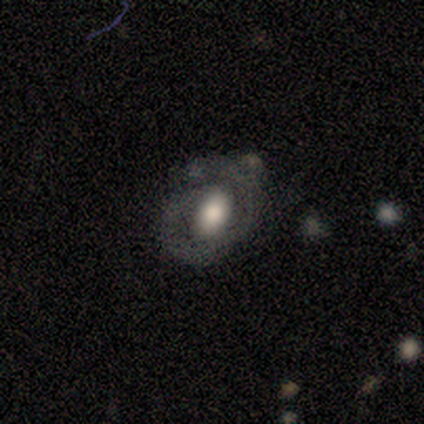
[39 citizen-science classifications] Smooth or featured? 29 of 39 (74%) said featured or disk. Edge-on disk? 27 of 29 (93%) said no. Bar? 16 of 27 (59%) said no. Spiral arms? 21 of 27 (78%) said yes. Spiral winding? 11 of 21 (52%) said tight. Spiral arm count? 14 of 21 (67%) said 2. Bulge size? 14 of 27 (52%) said moderate. Merging? 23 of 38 (61%) said none.